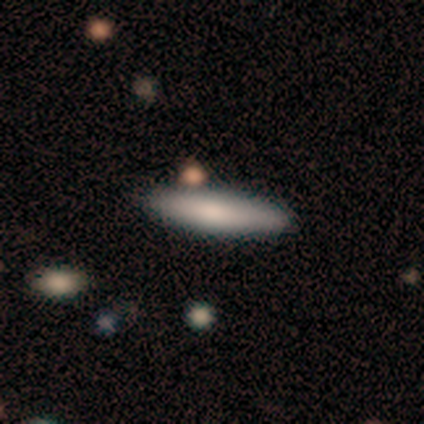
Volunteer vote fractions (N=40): smooth_or_featured: smooth (p=0.68) [alt: featured or disk p=0.25]
how_rounded: cigar-shaped (p=0.81) [alt: in between p=0.19]
merging: none (p=0.84) [alt: minor disturbance p=0.11]